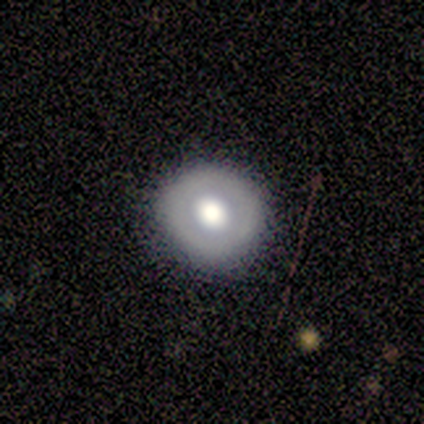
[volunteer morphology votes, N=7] Smooth or featured: smooth — 57% (featured or disk — 43%)
How rounded: round — 100%
Merging: none — 86% (minor disturbance — 14%)